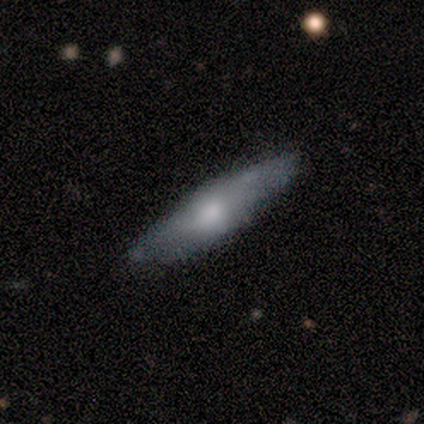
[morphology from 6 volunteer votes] A smooth galaxy with no disk features (67%) that is cigar-shaped (100%).

Vote fractions:
- Smooth or featured? smooth: 67% / featured or disk: 33% / star or artifact: 0%
- How rounded? cigar-shaped: 100% / round: 0% / in between: 0%
- Merging? none: 100% / minor disturbance: 0% / major disturbance: 0% / merger: 0%